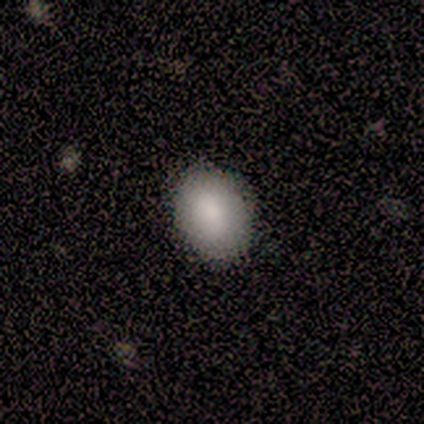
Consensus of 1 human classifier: smooth 100%, featured or disk 0%, star or artifact 0%. Down the decision tree: how rounded — in between (100%); merging — none (100%).